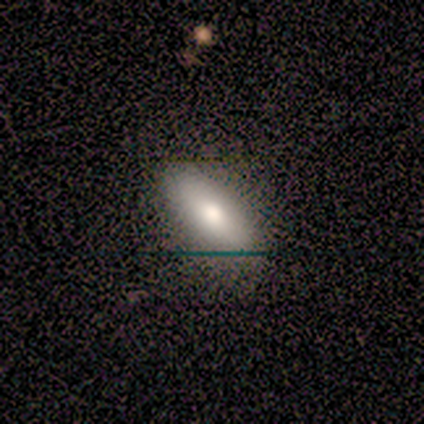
Smooth or featured: smooth — 60% (featured or disk — 20%)
How rounded: in between — 67% (cigar-shaped — 33%)
Merging: none — 100%